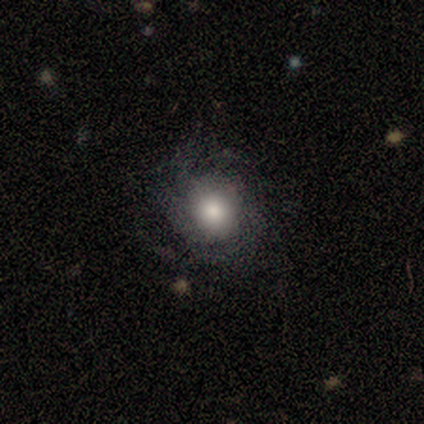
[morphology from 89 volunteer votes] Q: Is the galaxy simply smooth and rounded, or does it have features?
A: featured or disk — 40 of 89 (45%).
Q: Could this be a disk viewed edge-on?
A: no — 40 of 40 (100%).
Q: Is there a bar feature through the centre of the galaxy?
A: no — 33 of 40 (82%).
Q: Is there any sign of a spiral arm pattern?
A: yes — 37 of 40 (92%).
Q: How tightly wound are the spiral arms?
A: tight — 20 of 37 (54%).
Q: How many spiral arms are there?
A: can't tell — 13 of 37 (35%).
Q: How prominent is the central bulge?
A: large — 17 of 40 (42%, tied with moderate).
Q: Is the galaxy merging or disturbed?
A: none — 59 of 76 (78%).